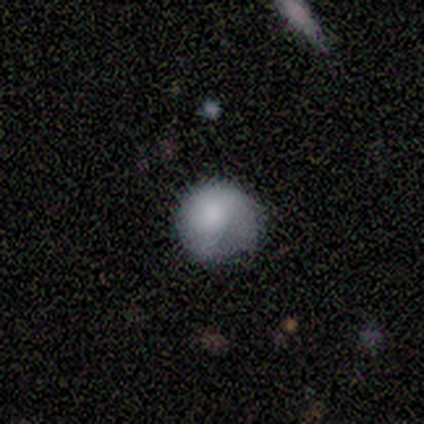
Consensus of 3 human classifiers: Q: Smooth or featured?
A: smooth (33%); tied with: featured or disk (33%); star or artifact (33%)
Q: How rounded?
A: round (100%)
Q: Merging?
A: minor disturbance (100%)